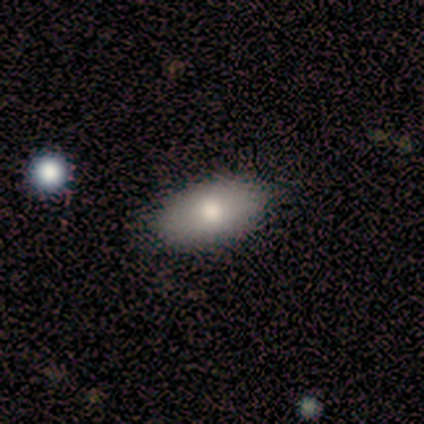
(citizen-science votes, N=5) Smooth or featured? smooth (60%)
How rounded? in between (100%)
Merging? none (100%)